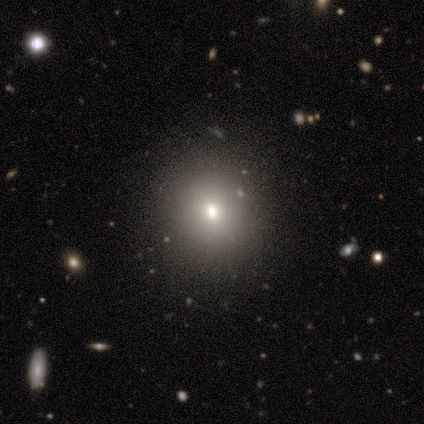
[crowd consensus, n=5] Morphology: type=smooth (80%); roundness=round (75%); merging=none (75%).